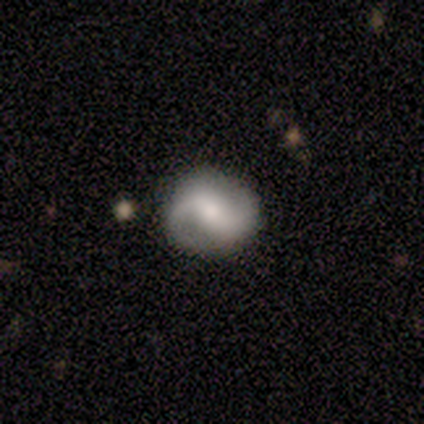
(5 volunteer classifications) Q: Smooth or featured?
A: smooth (60%); runner-up: featured or disk (40%)
Q: How rounded?
A: round (67%); runner-up: in between (33%)
Q: Merging?
A: none (80%); runner-up: minor disturbance (20%)